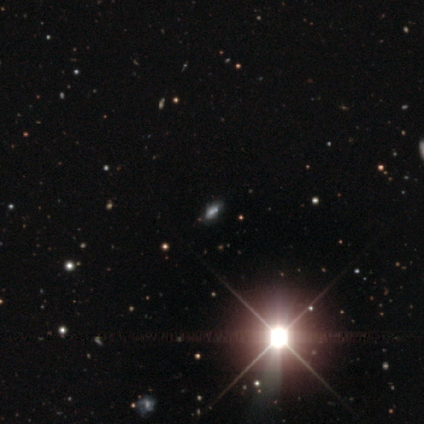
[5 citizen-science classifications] Smooth or featured? star or artifact (80%)